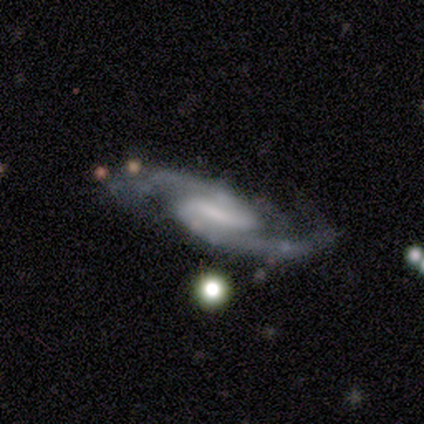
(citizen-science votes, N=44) Smooth or featured: featured or disk — 91% (smooth — 7%)
Edge-on disk: no — 98% (yes — 2%)
Bar: weak — 49% (strong — 28%)
Spiral arms: yes — 100%
Spiral winding: medium — 54% (tight — 23%)
Spiral arm count: 2 — 90% (3 — 8%)
Bulge size: moderate — 31% (tied with none — 31%)
Merging: none — 67% (minor disturbance — 23%)